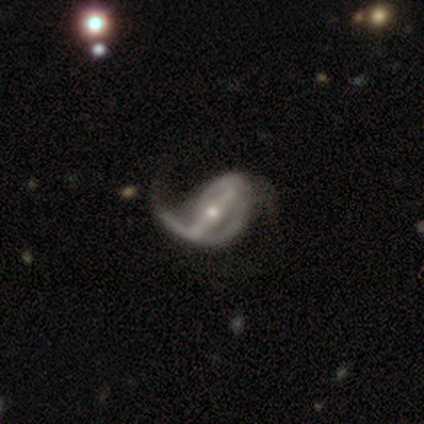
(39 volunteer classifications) smooth_or_featured: featured or disk (p=0.90) [alt: smooth p=0.05]
disk_edge_on: no (p=0.91) [alt: yes p=0.09]
bar: strong (p=0.91) [alt: weak p=0.09]
has_spiral_arms: yes (p=0.84) [alt: no p=0.16]
spiral_winding: loose (p=0.67) [alt: tight p=0.19]
spiral_arm_count: 2 (p=0.67) [alt: 1 p=0.19]
bulge_size: small (p=0.53) [alt: moderate p=0.47]
merging: major disturbance (p=0.35) [alt: none p=0.22]